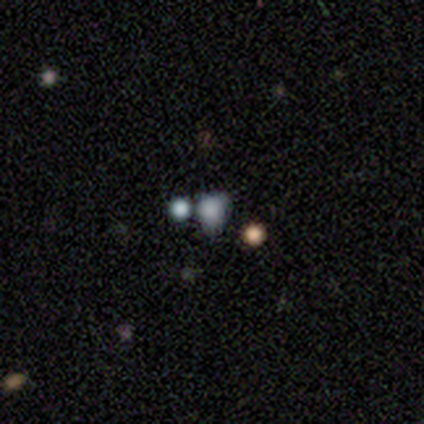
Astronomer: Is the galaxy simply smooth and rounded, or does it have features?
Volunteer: star or artifact — 60%.